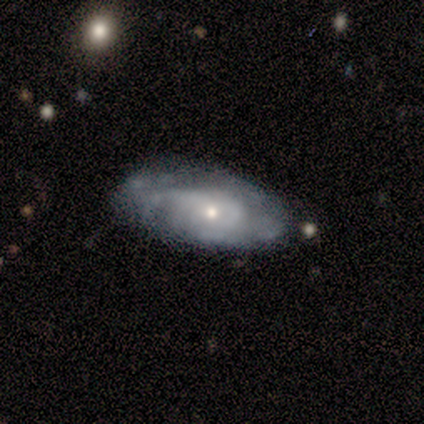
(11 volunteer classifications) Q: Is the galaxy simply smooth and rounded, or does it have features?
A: featured or disk — 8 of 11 (73%).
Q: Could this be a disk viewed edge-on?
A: no — 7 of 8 (88%).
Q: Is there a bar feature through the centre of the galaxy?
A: no — 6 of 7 (86%).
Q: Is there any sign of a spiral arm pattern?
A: yes — 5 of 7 (71%).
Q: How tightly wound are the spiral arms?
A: tight — 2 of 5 (40%, tied with medium).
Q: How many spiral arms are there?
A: can't tell — 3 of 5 (60%).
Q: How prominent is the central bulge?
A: small — 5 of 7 (71%).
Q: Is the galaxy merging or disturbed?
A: none — 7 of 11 (64%).